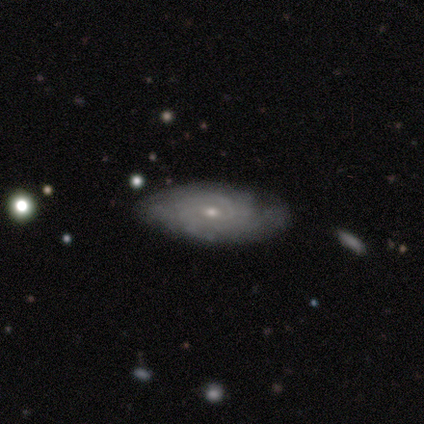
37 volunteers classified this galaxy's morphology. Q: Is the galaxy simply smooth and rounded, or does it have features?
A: featured or disk — 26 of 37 (70%).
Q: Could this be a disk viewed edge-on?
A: no — 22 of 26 (85%).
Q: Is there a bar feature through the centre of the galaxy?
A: no — 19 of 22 (86%).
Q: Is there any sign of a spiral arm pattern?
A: yes — 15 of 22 (68%).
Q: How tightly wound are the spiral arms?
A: tight — 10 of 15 (67%).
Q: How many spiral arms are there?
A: can't tell — 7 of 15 (47%).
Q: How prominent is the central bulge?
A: small — 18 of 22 (82%).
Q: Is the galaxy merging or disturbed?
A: none — 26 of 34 (76%).